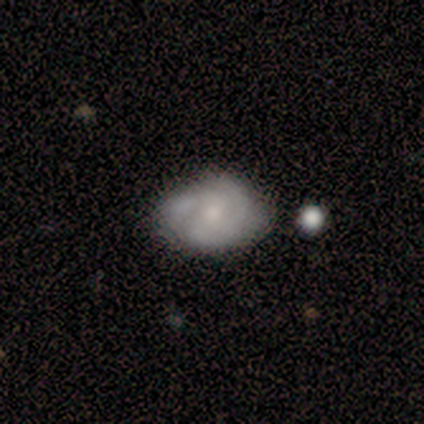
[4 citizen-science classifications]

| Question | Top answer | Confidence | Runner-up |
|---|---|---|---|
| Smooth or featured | smooth | 75% | featured or disk (25%) |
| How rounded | in between | 100% | — |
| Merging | minor disturbance | 75% | merger (25%) |